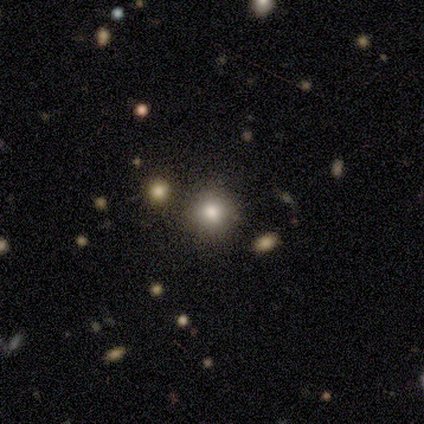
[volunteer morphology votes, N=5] smooth-or-featured: smooth: 60% | featured or disk: 20% | star or artifact: 20%
  how-rounded: round: 100% | in between: 0% | cigar-shaped: 0%
  merging: none: 100% | minor disturbance: 0% | major disturbance: 0% | merger: 0%